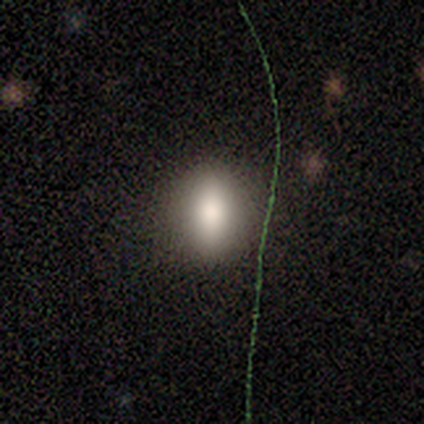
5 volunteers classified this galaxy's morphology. Smooth or featured?
  - smooth: 40% * (tied)
  - featured or disk: 40% * (tied)
  - star or artifact: 20%
How rounded?
  - round: 50% * (tied)
  - in between: 50% * (tied)
  - cigar-shaped: 0%
Merging?
  - none: 75% *
  - major disturbance: 25%
  - minor disturbance: 0%
  - merger: 0%